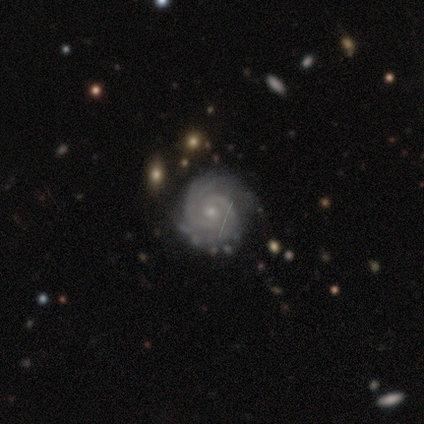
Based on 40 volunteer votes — smooth-or-featured: featured or disk: 98% | smooth: 2% | star or artifact: 0%
  disk-edge-on: no: 97% | yes: 3%
    bar: no: 84% | weak: 13% | strong: 3%
    has-spiral-arms: yes: 100% | no: 0%
      spiral-winding: tight: 89% | medium: 8% | loose: 3%
      spiral-arm-count: 2: 39% | can't tell: 29% | 3: 18% | 4: 8% | more than 4: 5% | 1: 0%
    bulge-size: small: 61% | moderate: 32% | large: 5% | none: 3% | dominant: 0%
  merging: none: 80% | minor disturbance: 15% | major disturbance: 2% | merger: 2%